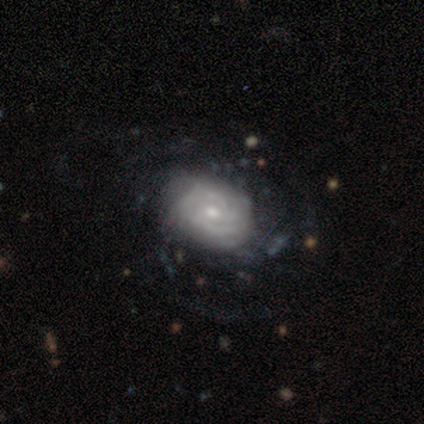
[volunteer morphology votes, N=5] Q: Smooth or featured?
A: featured or disk (80%); runner-up: star or artifact (20%)
Q: Edge-on disk?
A: no (100%)
Q: Bar?
A: no (75%); runner-up: weak (25%)
Q: Spiral arms?
A: yes (100%)
Q: Spiral winding?
A: tight (50%); tied with: medium (50%)
Q: Spiral arm count?
A: more than 4 (50%); runner-up: 2 (25%)
Q: Bulge size?
A: small (75%); runner-up: moderate (25%)
Q: Merging?
A: none (100%)